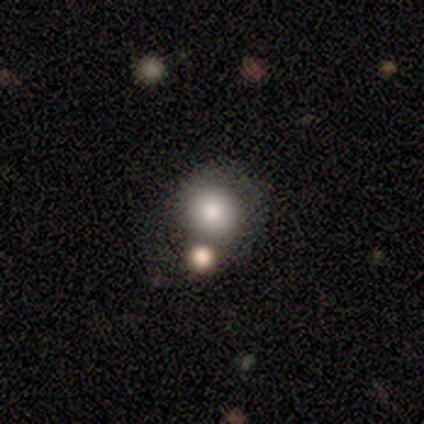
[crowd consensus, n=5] Overall: smooth (80%). How rounded: round (100%). Merging: none (60%; merger 40%).